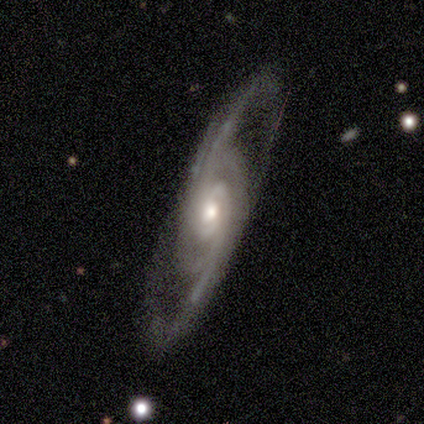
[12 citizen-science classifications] featured or disk 83%, smooth 17%, star or artifact 0%. Down the decision tree: edge-on disk — no (100%); bar — no (90%); spiral arms — yes (90%); spiral arm count — 2 (56%); spiral winding — medium (89%); bulge size — moderate (90%); merging — none (75%).